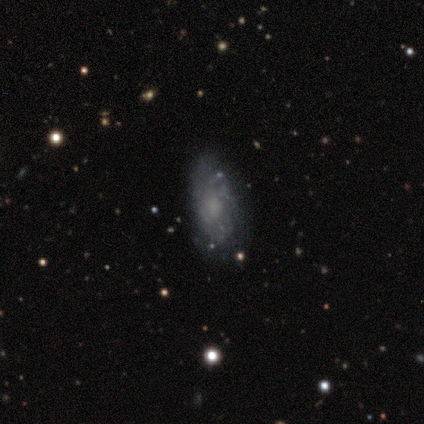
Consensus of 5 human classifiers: Q: Smooth or featured?
A: featured or disk (60%); runner-up: smooth (20%)
Q: Edge-on disk?
A: no (100%)
Q: Bar?
A: no (100%)
Q: Spiral arms?
A: yes (100%)
Q: Spiral winding?
A: loose (67%); runner-up: tight (33%)
Q: Spiral arm count?
A: can't tell (67%); runner-up: 2 (33%)
Q: Bulge size?
A: small (67%); runner-up: none (33%)
Q: Merging?
A: none (75%); runner-up: minor disturbance (25%)